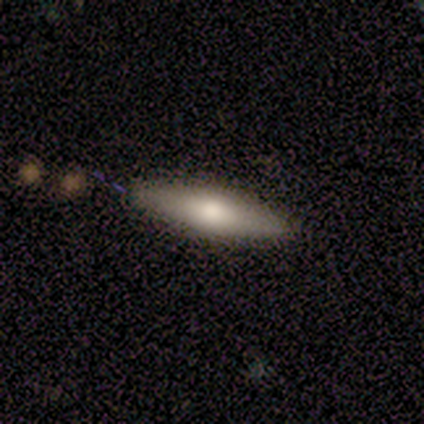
This is likely a smooth galaxy (60%). How rounded: likely in between (67%). Merging: clearly none (100%).